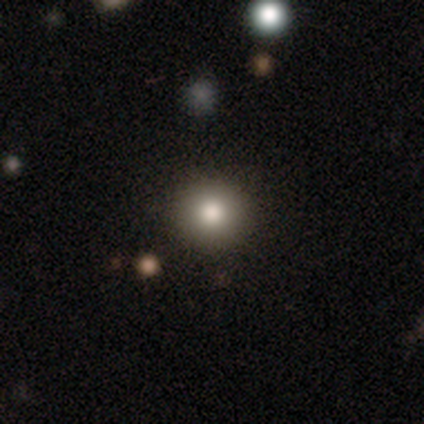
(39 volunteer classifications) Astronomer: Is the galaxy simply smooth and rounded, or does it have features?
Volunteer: smooth — 77%.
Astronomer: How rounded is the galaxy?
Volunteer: round — 93%.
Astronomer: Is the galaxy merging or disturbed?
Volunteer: none — 83%.